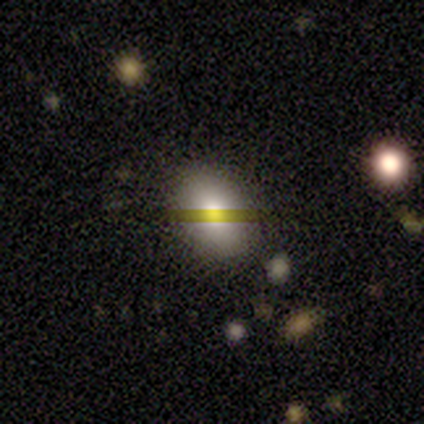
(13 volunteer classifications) A smooth galaxy with no disk features (69%) that is in between round and cigar-shaped (100%).

Vote fractions:
- Smooth or featured? smooth: 69% / star or artifact: 23% / featured or disk: 8%
- How rounded? in between: 100% / round: 0% / cigar-shaped: 0%
- Merging? none: 60% / minor disturbance: 30% / major disturbance: 10% / merger: 0%